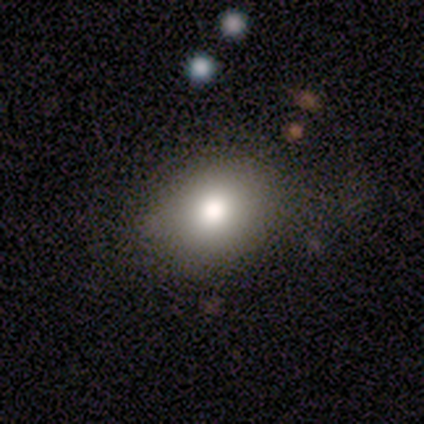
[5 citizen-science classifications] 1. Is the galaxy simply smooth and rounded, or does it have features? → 80% smooth, 20% featured or disk, 0% star or artifact.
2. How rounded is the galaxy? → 50% round (tied), 50% in between (tied), 0% cigar-shaped.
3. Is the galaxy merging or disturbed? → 80% none, 20% major disturbance, 0% minor disturbance, 0% merger.